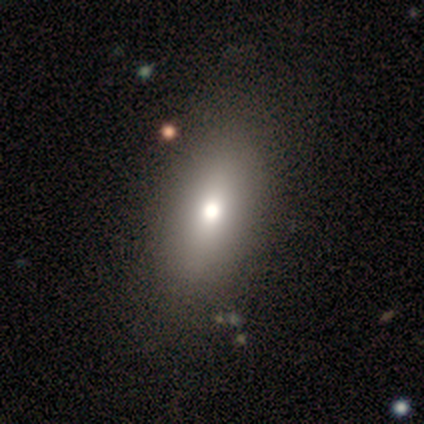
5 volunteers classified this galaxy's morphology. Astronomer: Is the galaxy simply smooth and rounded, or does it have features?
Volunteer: smooth — 80%.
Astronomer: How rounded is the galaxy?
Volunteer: in between — 75%.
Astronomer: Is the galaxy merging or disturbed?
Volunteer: none — 40%, tied with minor disturbance at 40%.